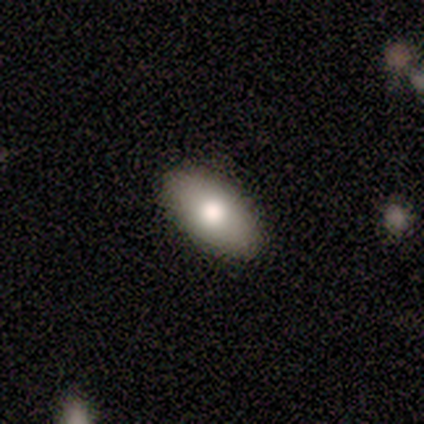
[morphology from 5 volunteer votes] smooth_or_featured: smooth (p=1.00)
how_rounded: in between (p=1.00)
merging: none (p=0.60) [alt: minor disturbance p=0.40]